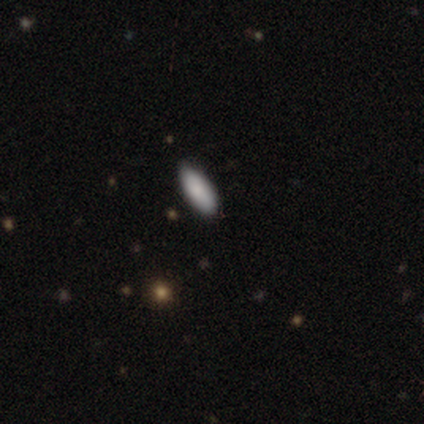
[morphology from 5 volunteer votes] Smooth or featured? smooth (80%)
How rounded? in between (75%)
Merging? none (60%)